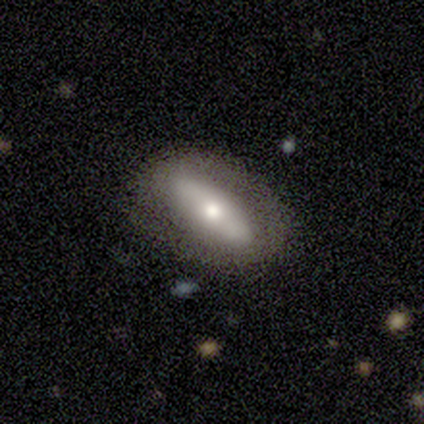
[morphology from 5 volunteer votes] Overall: smooth (60%; featured or disk 20%). How rounded: in between (100%). Merging: none (50%; minor disturbance 25%).